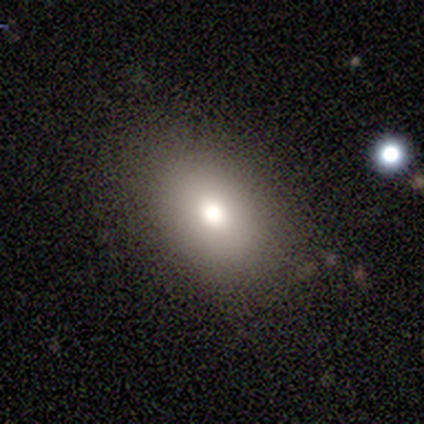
A smooth galaxy with no disk features (77%) that is in between round and cigar-shaped (73%). Merging: none (92%).